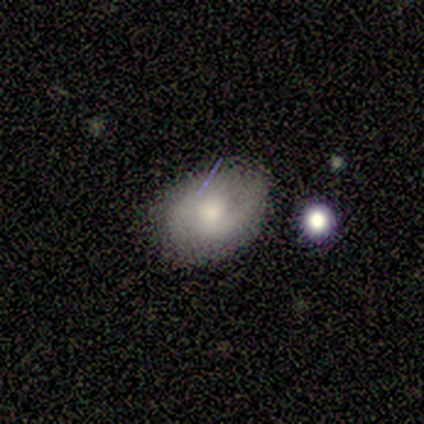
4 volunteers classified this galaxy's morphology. Smooth or featured? smooth (50%, tied with featured or disk)
How rounded? round (50%, tied with in between)
Merging? none (75%)